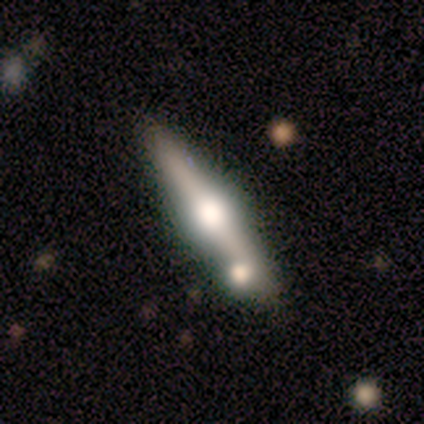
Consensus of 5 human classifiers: This appears to be a featured or disk galaxy (60%) viewed edge-on (100%) with a rounded central bulge (100%). Merging: none (50%).